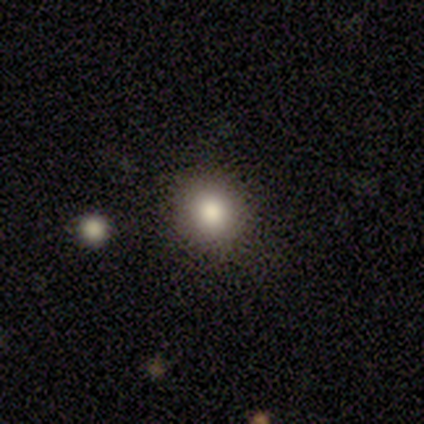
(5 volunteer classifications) Overall: smooth (80%). How rounded: round (100%). Merging: none (100%).